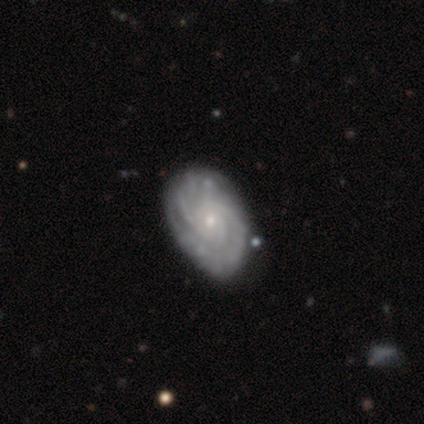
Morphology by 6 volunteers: Smooth or featured: featured or disk — 100%
Edge-on disk: no — 83% (yes — 17%)
Bar: no — 80% (strong — 20%)
Spiral arms: yes — 100%
Spiral winding: tight — 80% (medium — 20%)
Spiral arm count: 2 — 40% (1 — 20%)
Bulge size: small — 100%
Merging: none — 83% (major disturbance — 17%)